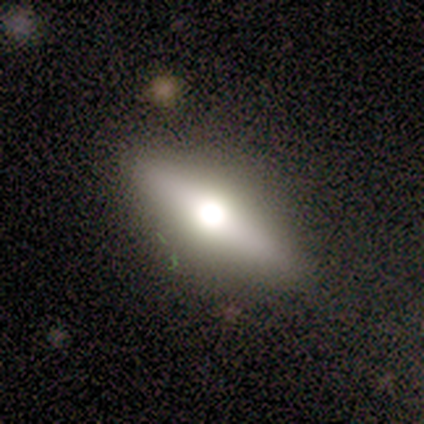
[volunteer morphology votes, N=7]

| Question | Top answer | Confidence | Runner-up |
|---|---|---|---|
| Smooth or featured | smooth | 57% | featured or disk (43%) |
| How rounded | cigar-shaped | 50% | round (25%) |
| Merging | none | 71% | minor disturbance (29%) |